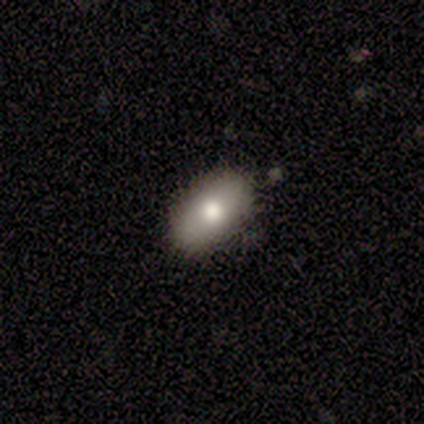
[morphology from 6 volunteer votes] Volunteers were most divided on "smooth or featured": smooth: 83%, featured or disk: 17%, star or artifact: 0%. More confident: how rounded — in between (100%); merging — none (100%).